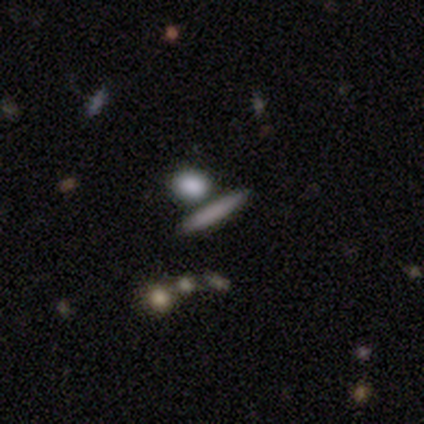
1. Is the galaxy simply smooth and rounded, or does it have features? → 100% smooth, 0% featured or disk, 0% star or artifact.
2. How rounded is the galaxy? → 80% cigar-shaped, 20% in between, 0% round.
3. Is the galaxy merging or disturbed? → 80% none, 20% merger, 0% minor disturbance, 0% major disturbance.